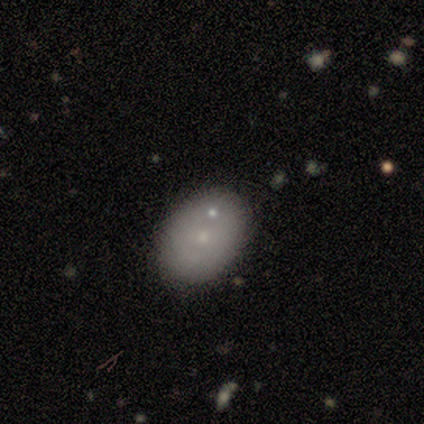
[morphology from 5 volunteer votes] This is likely a smooth galaxy (60%). How rounded: clearly in between (100%). Merging: clearly none (80%).